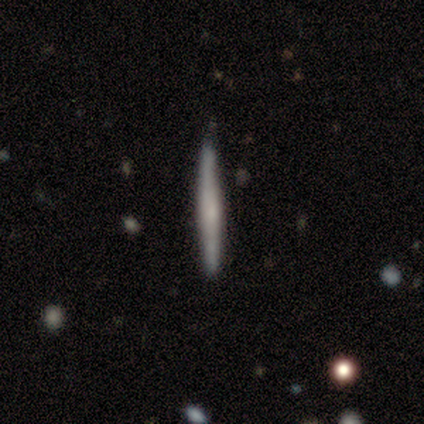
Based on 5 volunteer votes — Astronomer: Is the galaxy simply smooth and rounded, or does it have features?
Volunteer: smooth — 60% (runner-up: featured or disk, 40%).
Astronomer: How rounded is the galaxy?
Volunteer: cigar-shaped — 100%.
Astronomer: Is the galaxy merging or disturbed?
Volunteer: none — 80%.